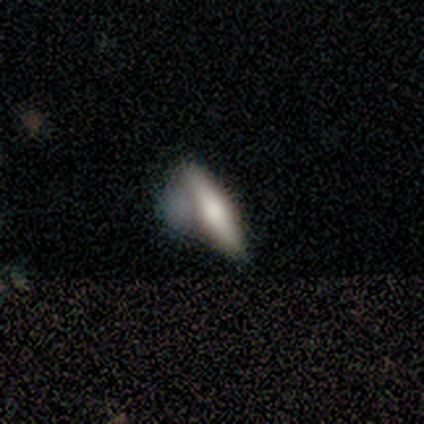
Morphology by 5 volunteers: Smooth or featured: featured or disk — 40% (tied with star or artifact — 40%)
Edge-on disk: yes — 100%
Edge-on bulge: rounded — 100%
Merging: none — 67% (minor disturbance — 33%)